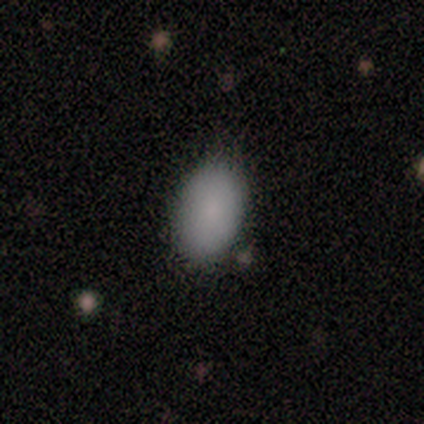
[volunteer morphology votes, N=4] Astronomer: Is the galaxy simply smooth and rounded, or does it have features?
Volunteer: smooth — 75%.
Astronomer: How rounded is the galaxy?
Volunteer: in between — 100%.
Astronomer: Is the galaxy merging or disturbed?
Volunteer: none — 100%.